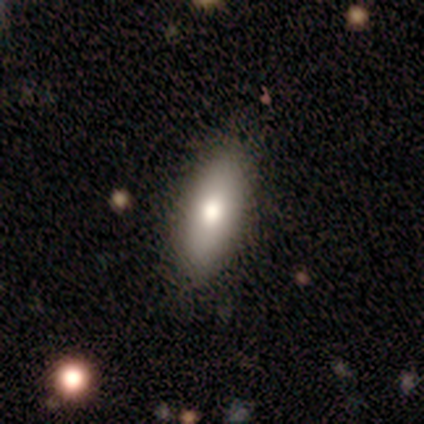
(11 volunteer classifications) smooth_or_featured: smooth (p=0.73) [alt: featured or disk p=0.18]
how_rounded: in between (p=0.88) [alt: cigar-shaped p=0.12]
merging: none (p=1.00)